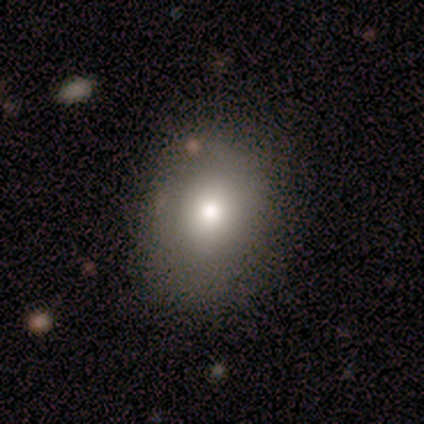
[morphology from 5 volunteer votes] A smooth galaxy with no disk features (80%) that is in between round and cigar-shaped (75%). Merging: none (100%).